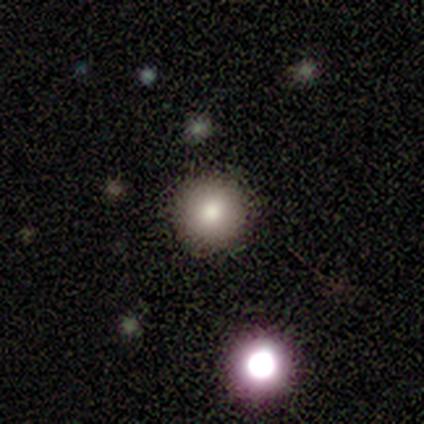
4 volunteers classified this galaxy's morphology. Consensus on every question: smooth or featured — smooth (100%); how rounded — round (100%); merging — none (100%).